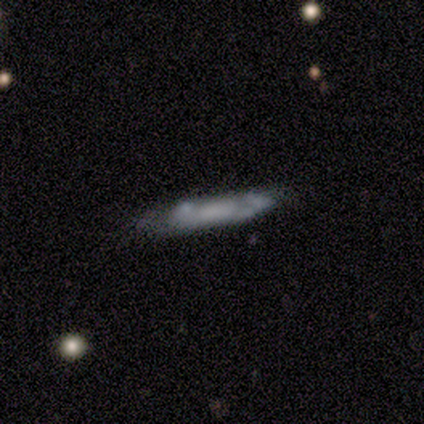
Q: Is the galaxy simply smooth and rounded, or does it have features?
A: featured or disk — 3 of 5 (60%).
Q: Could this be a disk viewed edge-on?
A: yes — 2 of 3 (67%).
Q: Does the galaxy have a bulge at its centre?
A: boxy — 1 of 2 (50%, tied with rounded).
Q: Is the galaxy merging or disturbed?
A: none — 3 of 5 (60%).